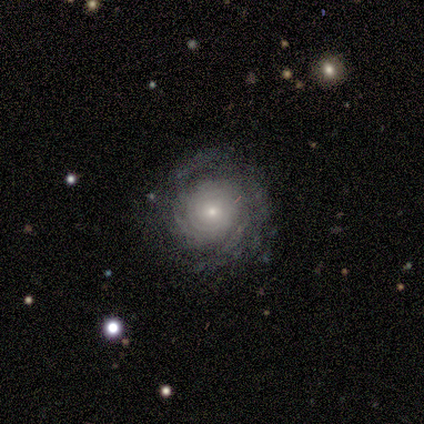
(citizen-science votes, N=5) Morphology: type=featured or disk (80%); edge-on=no (100%); bar=no (100%); spiral arms=yes (75%); winding=tight (67%); arm count=2 (33%, tied with 3 and can't tell); bulge=small (75%); merging=none (80%).